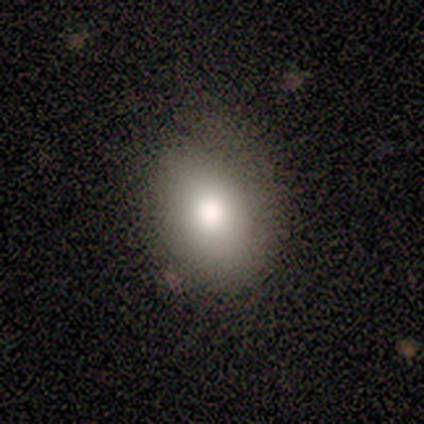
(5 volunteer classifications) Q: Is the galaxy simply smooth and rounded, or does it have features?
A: smooth — 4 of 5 (80%).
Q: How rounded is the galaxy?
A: in between — 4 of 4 (100%).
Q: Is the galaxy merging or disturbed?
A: minor disturbance — 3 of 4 (75%).